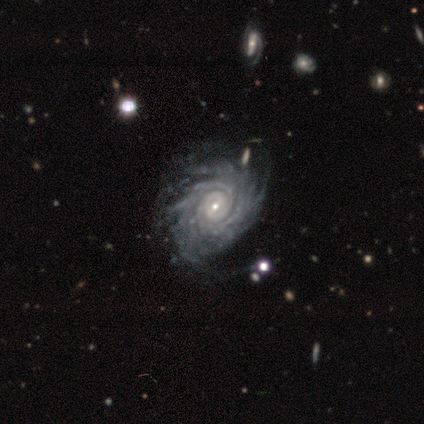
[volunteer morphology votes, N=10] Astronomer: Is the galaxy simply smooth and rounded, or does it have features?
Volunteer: featured or disk — 100%.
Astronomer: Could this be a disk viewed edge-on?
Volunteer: no — 100%.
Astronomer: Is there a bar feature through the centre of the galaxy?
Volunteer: no — 40% (runner-up: strong, 30%).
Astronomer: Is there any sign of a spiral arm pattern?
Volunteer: yes — 100%.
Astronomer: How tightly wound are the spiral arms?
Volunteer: tight — 80%.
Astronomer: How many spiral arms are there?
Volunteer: more than 4 — 60%.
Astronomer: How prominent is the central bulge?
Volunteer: small — 70%.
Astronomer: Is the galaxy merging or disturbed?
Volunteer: none — 50%, tied with minor disturbance at 50%.